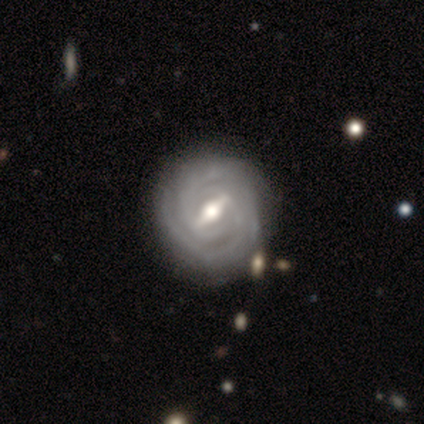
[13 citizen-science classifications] Smooth or featured?
  - featured or disk: 85% *
  - smooth: 15%
  - star or artifact: 0%
Edge-on disk?
  - no: 91% *
  - yes: 9%
Bar?
  - strong: 70% *
  - weak: 20%
  - no: 10%
Spiral arms?
  - yes: 100% *
  - no: 0%
Spiral winding?
  - tight: 90% *
  - medium: 10%
  - loose: 0%
Spiral arm count?
  - 2: 40% *
  - can't tell: 30%
  - 3: 20%
  - 4: 10%
  - 1: 0%
  - more than 4: 0%
Bulge size?
  - moderate: 80% *
  - large: 20%
  - dominant: 0%
  - small: 0%
  - none: 0%
Merging?
  - none: 69% *
  - minor disturbance: 15%
  - major disturbance: 15%
  - merger: 0%